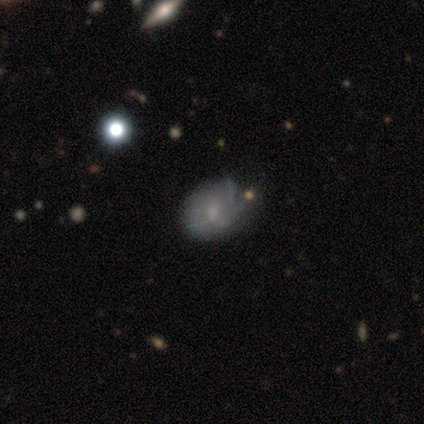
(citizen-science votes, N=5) Q: Smooth or featured?
A: featured or disk (60%); runner-up: smooth (40%)
Q: Edge-on disk?
A: no (100%)
Q: Bar?
A: no (100%)
Q: Spiral arms?
A: yes (100%)
Q: Spiral winding?
A: tight (67%); runner-up: loose (33%)
Q: Spiral arm count?
A: can't tell (67%); runner-up: 3 (33%)
Q: Bulge size?
A: moderate (33%); tied with: small (33%); none (33%)
Q: Merging?
A: major disturbance (40%); runner-up: none (20%)